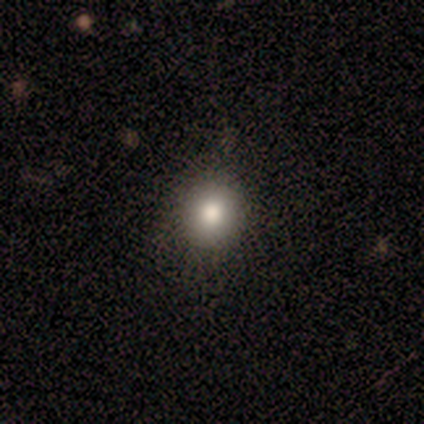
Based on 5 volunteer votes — Morphology: type=smooth (100%); roundness=round (100%); merging=none (60%).